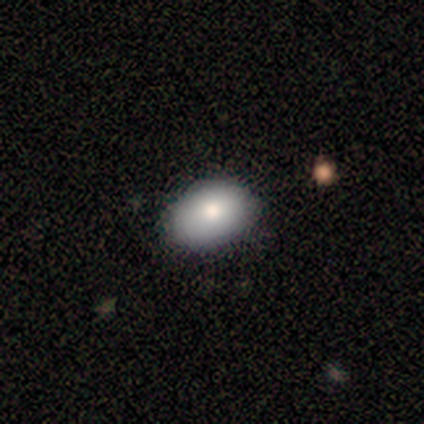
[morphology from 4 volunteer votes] Smooth or featured?
  - smooth: 100% *
  - featured or disk: 0%
  - star or artifact: 0%
How rounded?
  - in between: 75% *
  - round: 25%
  - cigar-shaped: 0%
Merging?
  - none: 75% *
  - major disturbance: 25%
  - minor disturbance: 0%
  - merger: 0%